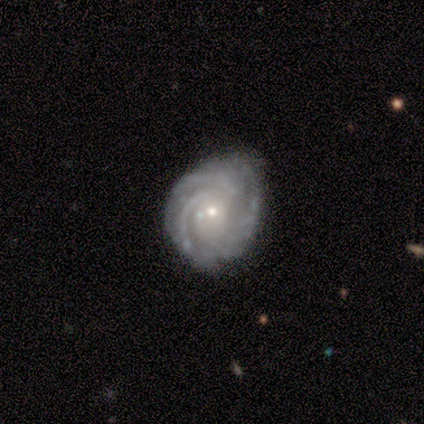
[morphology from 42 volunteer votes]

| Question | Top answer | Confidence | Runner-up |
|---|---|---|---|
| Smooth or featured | featured or disk | 86% | smooth (12%) |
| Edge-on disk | no | 92% | yes (8%) |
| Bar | no | 82% | weak (12%) |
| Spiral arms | yes | 94% | no (6%) |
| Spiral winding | tight | 77% | medium (23%) |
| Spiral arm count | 3 | 32% | 4 (29%) |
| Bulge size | small | 73% | moderate (27%) |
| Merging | none | 59% | minor disturbance (29%) |